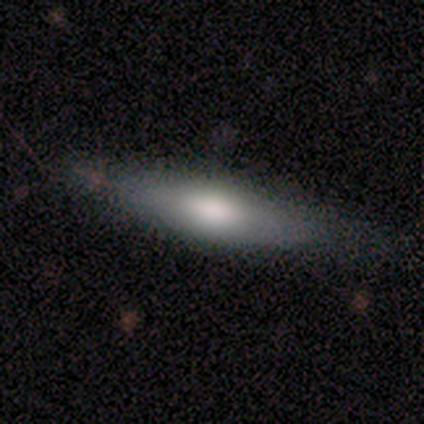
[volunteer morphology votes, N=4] type=smooth (100%); roundness=cigar-shaped (75%); merging=none (100%).